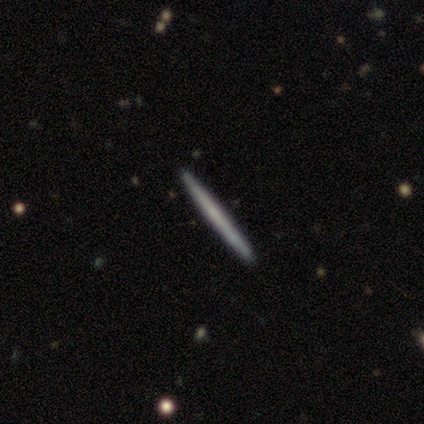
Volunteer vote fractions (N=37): A smooth galaxy with no disk features (49%) that is cigar-shaped (94%). Merging: none (97%).